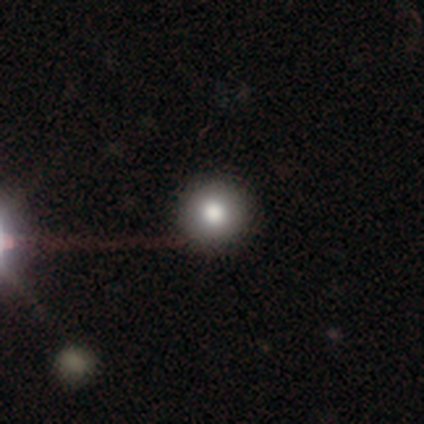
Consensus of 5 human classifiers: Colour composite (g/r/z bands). It shows a featured or disk galaxy (40%, tied with star or artifact) viewed edge-on (50%, tied with no) with a rounded central bulge (100%). Merging: none (100%).